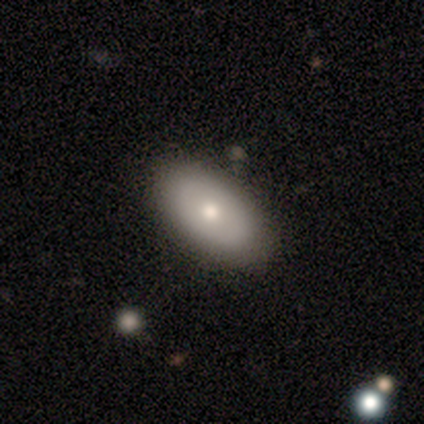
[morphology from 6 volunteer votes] Smooth or featured: smooth — 67% (featured or disk — 33%)
How rounded: in between — 100%
Merging: none — 100%